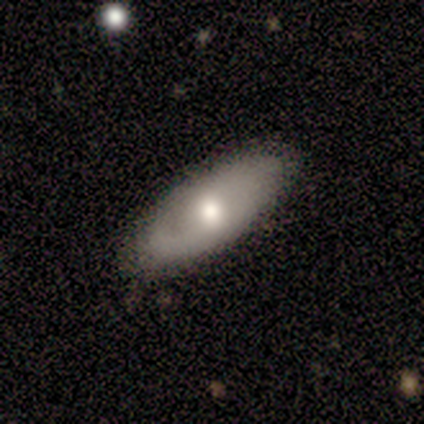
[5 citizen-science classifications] Overall: featured or disk (60%; smooth 40%). Edge-on disk: yes (67%; no 33%). Edge-on bulge: rounded (100%). Merging: none (80%).